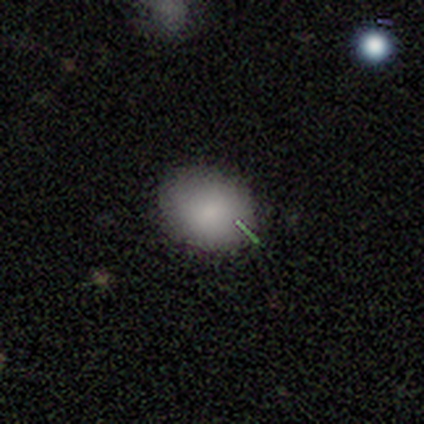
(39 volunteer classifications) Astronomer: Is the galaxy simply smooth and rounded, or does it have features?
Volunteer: smooth — 95%.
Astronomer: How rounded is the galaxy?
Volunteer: in between — 65%.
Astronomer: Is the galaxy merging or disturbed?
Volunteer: none — 86%.